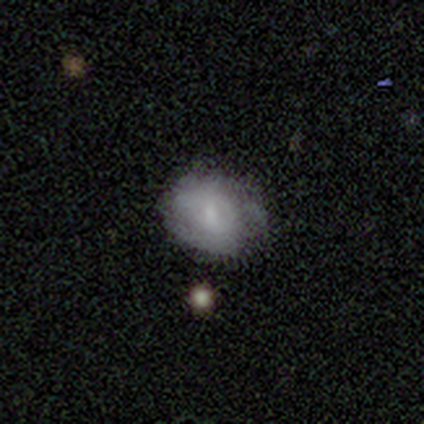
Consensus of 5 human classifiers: Smooth or featured? 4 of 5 (80%) said smooth. How rounded? 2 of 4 (50%, tied with in between) said round. Merging? 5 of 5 (100%) said none.